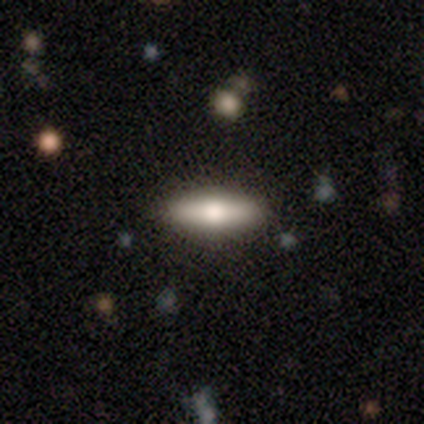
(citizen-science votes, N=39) Smooth or featured? 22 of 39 (56%) said smooth. How rounded? 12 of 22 (55%) said in between. Merging? 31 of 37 (84%) said none.